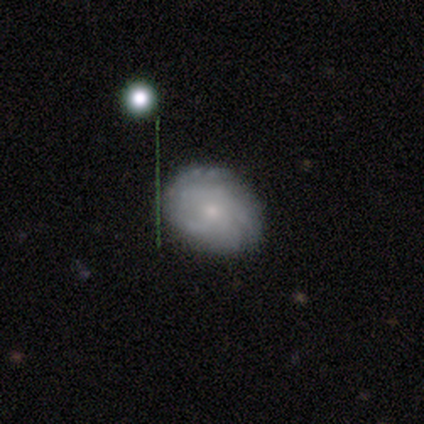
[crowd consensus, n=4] Overall: star or artifact (50%; smooth 25%).